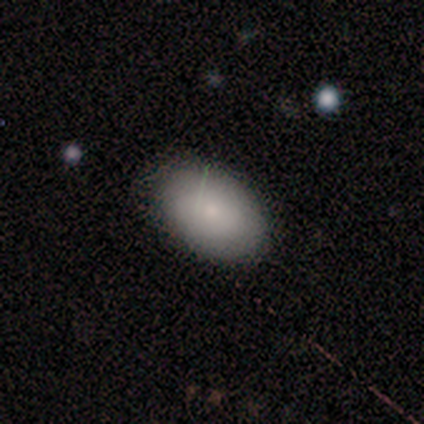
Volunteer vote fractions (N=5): This is likely a smooth galaxy (60%). How rounded: likely in between (67%). Merging: clearly none (100%).